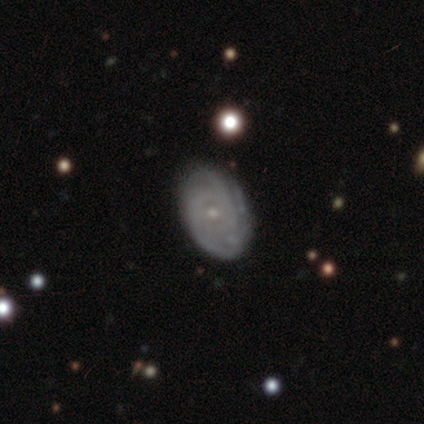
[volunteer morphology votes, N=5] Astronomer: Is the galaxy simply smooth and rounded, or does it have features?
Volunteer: featured or disk — 100%.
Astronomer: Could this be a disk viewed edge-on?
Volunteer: no — 100%.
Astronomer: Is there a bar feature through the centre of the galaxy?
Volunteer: no — 80%.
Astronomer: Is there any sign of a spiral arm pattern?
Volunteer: yes — 80%.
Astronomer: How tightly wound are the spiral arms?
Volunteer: tight — 75%.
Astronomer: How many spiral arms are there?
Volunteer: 2 — 50%.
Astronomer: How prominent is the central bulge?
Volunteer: small — 100%.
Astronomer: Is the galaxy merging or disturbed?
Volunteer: none — 100%.